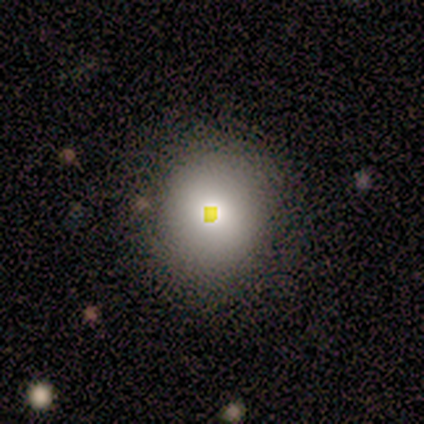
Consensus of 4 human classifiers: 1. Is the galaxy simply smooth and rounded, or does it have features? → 75% smooth, 25% star or artifact, 0% featured or disk.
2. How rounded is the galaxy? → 67% round, 33% in between, 0% cigar-shaped.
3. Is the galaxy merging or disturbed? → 33% none (tied), 33% minor disturbance (tied), 33% merger (tied), 0% major disturbance.